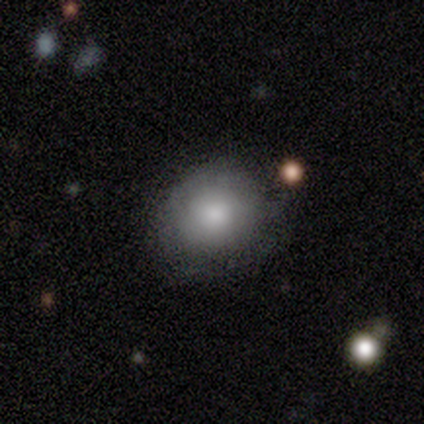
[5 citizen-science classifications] This is clearly a smooth galaxy (100%). How rounded: likely round (60%). Merging: clearly minor disturbance (80%).